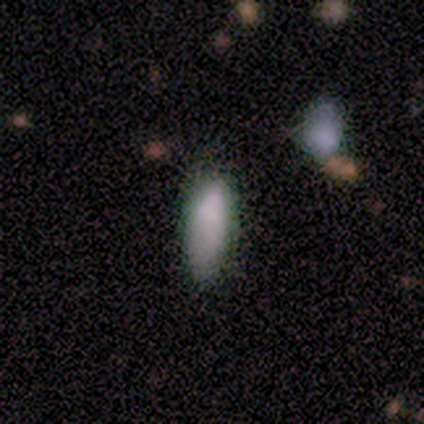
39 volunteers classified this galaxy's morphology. A smooth galaxy with no disk features (92%) that is in between round and cigar-shaped (69%). Merging: none (67%).